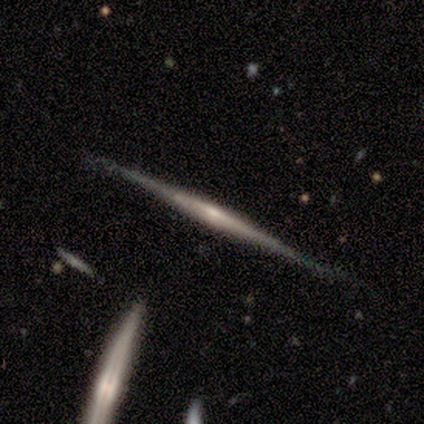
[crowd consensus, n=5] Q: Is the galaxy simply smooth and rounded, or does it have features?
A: featured or disk — 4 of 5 (80%).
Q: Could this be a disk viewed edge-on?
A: yes — 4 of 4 (100%).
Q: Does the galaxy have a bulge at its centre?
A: none — 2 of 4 (50%).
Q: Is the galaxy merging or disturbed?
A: none — 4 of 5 (80%).